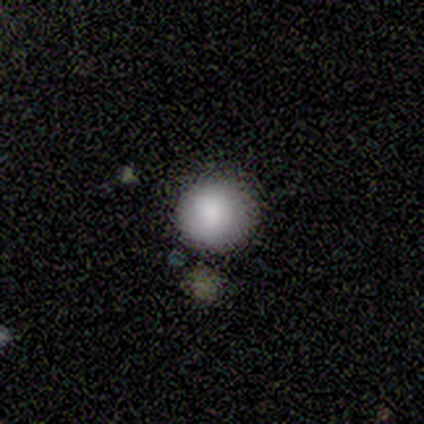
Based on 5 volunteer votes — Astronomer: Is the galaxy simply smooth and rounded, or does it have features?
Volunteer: smooth — 100%.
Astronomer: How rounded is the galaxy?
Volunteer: round — 100%.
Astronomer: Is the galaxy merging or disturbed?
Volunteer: none — 100%.